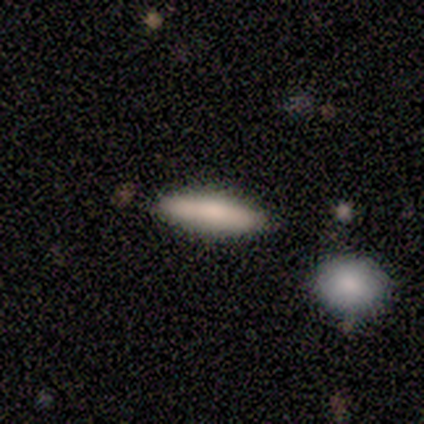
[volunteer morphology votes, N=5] This appears to be a smooth galaxy with no disk features (100%) that is cigar-shaped (80%). Merging: none (80%).